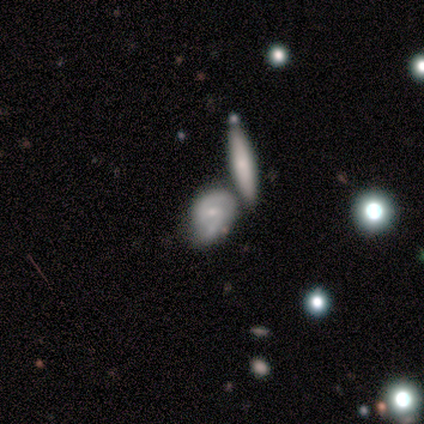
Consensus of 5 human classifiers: This appears to be a featured or disk galaxy (80%) with a weak bar (75%), 2 (75%) loose (50%) spiral arms (100%) and a small central bulge (100%). Merging: none (50%).